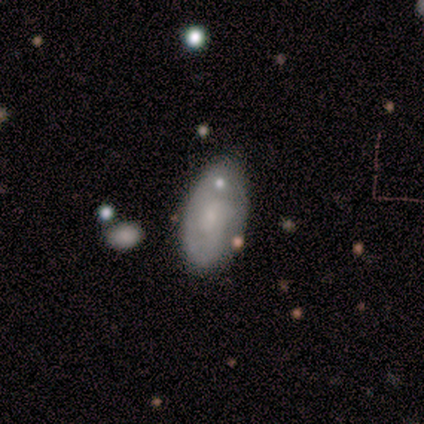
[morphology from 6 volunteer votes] Smooth or featured? featured or disk (50%)
Edge-on disk? no (100%)
Bar? no (100%)
Spiral arms? yes (67%)
Spiral winding? tight (100%)
Spiral arm count? can't tell (100%)
Bulge size? small (100%)
Merging? none (60%)